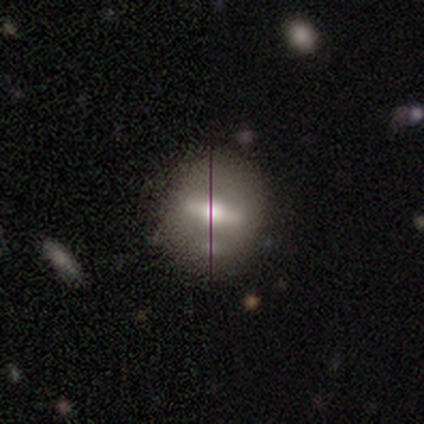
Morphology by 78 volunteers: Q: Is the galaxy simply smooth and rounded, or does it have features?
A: smooth — 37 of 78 (47%).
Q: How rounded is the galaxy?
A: round — 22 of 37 (59%).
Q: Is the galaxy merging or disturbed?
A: none — 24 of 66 (36%).